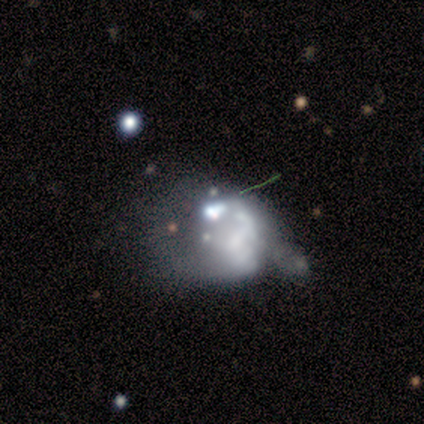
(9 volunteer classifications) featured or disk 78%, smooth 22%, star or artifact 0%. Down the decision tree: edge-on disk — no (100%); bar — no (71%); spiral arms — no (100%); bulge size — none (57%); merging — major disturbance (78%).